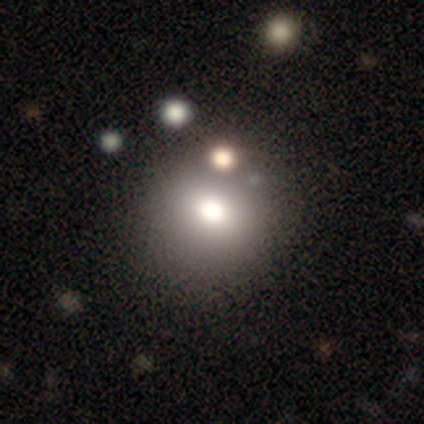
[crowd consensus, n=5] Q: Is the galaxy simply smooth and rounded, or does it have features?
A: smooth — 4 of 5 (80%).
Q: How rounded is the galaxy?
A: round — 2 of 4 (50%).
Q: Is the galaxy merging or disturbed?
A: none — 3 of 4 (75%).